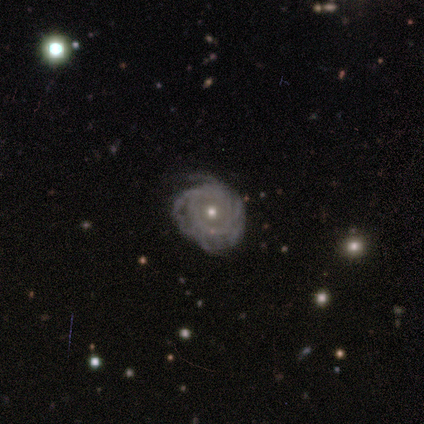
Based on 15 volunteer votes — Smooth or featured?
  - featured or disk: 87% *
  - smooth: 13%
  - star or artifact: 0%
Edge-on disk?
  - no: 100% *
  - yes: 0%
Bar?
  - no: 85% *
  - weak: 15%
  - strong: 0%
Spiral arms?
  - yes: 85% *
  - no: 15%
Spiral winding?
  - tight: 82% *
  - medium: 18%
  - loose: 0%
Spiral arm count?
  - can't tell: 55% *
  - more than 4: 36%
  - 4: 9%
  - 1: 0%
  - 2: 0%
  - 3: 0%
Bulge size?
  - moderate: 54% *
  - small: 46%
  - dominant: 0%
  - large: 0%
  - none: 0%
Merging?
  - none: 67% *
  - minor disturbance: 20%
  - major disturbance: 13%
  - merger: 0%